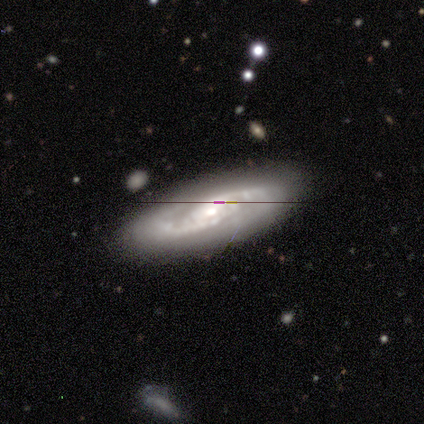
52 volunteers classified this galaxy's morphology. This is likely a featured or disk galaxy (77%). It is clearly not viewed edge-on (85%). Bar: likely no (71%). Spiral arm pattern: clearly yes (97%). Spiral arm count: likely 2 (73%). Spiral winding: possibly tight (52%). Central bulge: possibly moderate (53%). Merging: clearly none (83%).